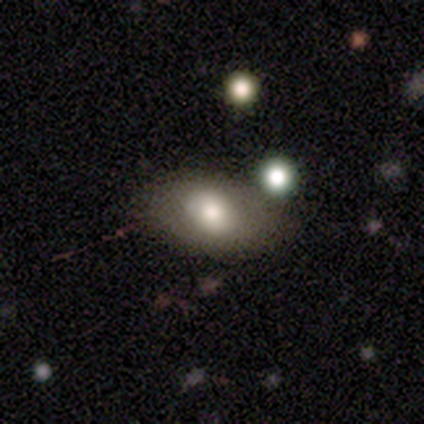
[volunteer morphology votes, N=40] Smooth or featured: smooth — 70% (featured or disk — 25%)
How rounded: in between — 89% (round — 11%)
Merging: none — 63% (minor disturbance — 24%)